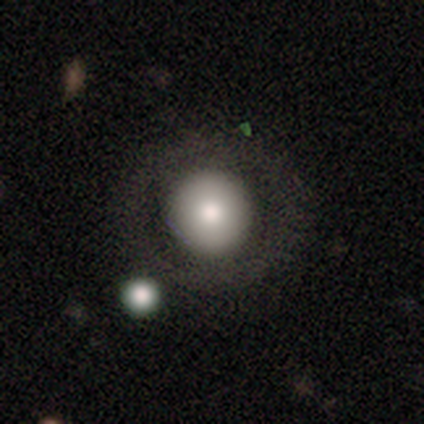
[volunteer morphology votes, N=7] smooth_or_featured: smooth (p=0.71) [alt: featured or disk p=0.29]
how_rounded: round (p=1.00)
merging: none (p=0.57) [alt: minor disturbance p=0.43]